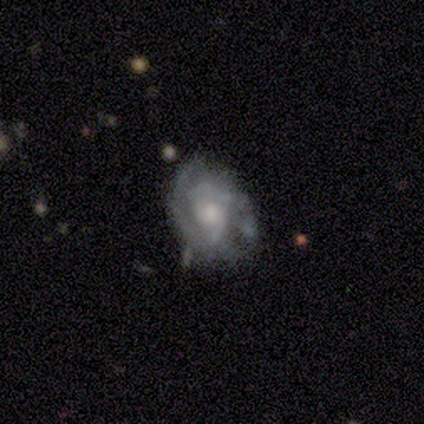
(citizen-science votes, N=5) Volunteers were most divided on "bar": weak: 50%, strong: 25%, no: 25%. More confident: edge-on disk — no (100%); smooth or featured — featured or disk (80%); merging — none (80%); spiral arms — yes (75%); spiral winding — tight (67%); spiral arm count — 2 (67%); bulge size — small (50%).